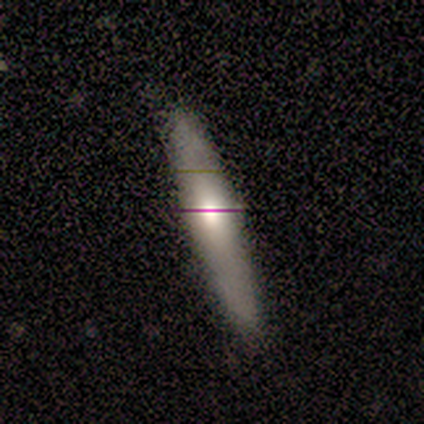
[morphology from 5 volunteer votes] This is clearly a featured or disk galaxy (80%). It is clearly viewed edge-on (100%). Edge-on bulge: likely rounded (75%). Merging: clearly none (80%).